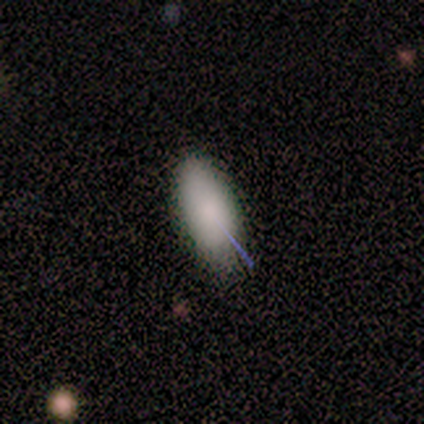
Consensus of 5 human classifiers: smooth 100%, featured or disk 0%, star or artifact 0%. Down the decision tree: how rounded — in between (100%); merging — none (60%).